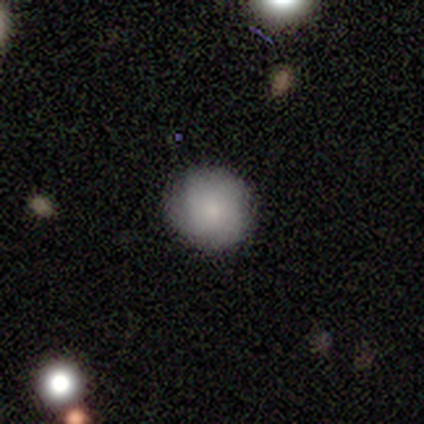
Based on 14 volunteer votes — Morphology: type=smooth (86%); roundness=round (100%); merging=none (77%).